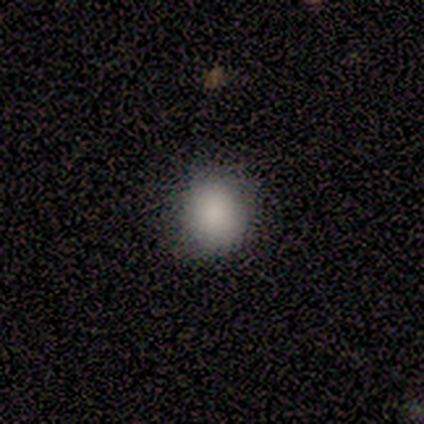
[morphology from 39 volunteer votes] Smooth or featured?
  - smooth: 90% *
  - star or artifact: 8%
  - featured or disk: 3%
How rounded?
  - round: 80% *
  - in between: 20%
  - cigar-shaped: 0%
Merging?
  - none: 72% *
  - minor disturbance: 8%
  - major disturbance: 3%
  - merger: 3%